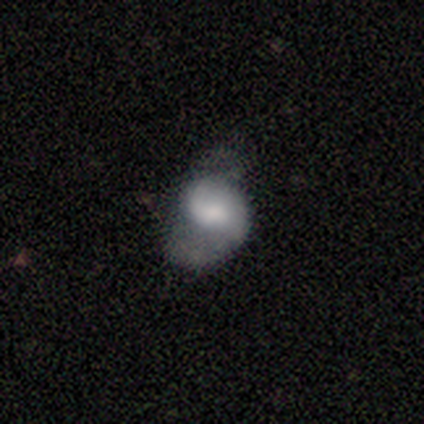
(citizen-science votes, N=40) Smooth or featured? featured or disk (65%)
Edge-on disk? no (100%)
Bar? no (58%)
Spiral arms? yes (81%)
Spiral winding? loose (48%)
Spiral arm count? 1 (48%)
Bulge size? small (35%)
Merging? major disturbance (39%)